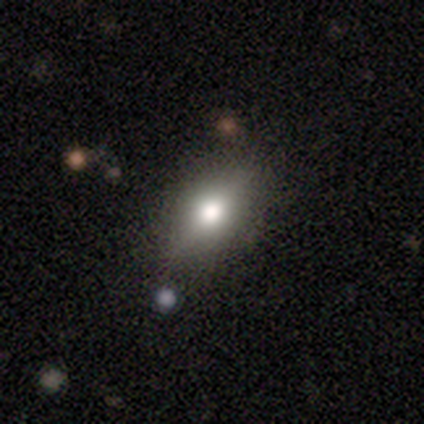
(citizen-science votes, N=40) smooth 72%, featured or disk 25%, star or artifact 2%. Down the decision tree: how rounded — in between (79%); merging — none (69%).